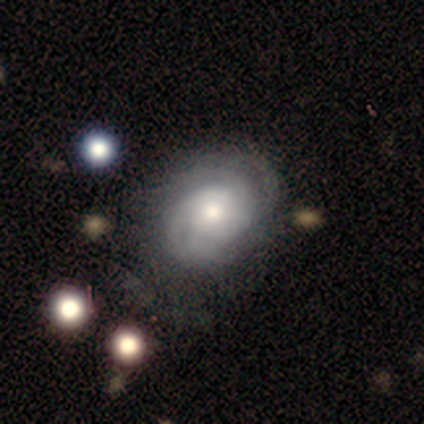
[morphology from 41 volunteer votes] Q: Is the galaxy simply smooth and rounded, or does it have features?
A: featured or disk — 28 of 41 (68%).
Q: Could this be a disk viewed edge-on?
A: no — 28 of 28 (100%).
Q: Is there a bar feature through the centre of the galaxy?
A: no — 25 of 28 (89%).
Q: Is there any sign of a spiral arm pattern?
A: yes — 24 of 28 (86%).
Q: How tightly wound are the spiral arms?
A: tight — 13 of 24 (54%).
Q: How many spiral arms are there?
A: can't tell — 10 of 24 (42%).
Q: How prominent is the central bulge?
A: moderate — 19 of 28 (68%).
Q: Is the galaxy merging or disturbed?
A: none — 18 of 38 (47%).